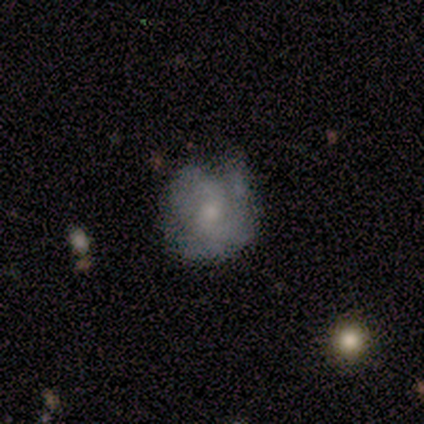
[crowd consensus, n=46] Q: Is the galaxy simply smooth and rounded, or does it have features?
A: featured or disk — 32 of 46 (70%).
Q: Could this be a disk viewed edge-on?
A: no — 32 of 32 (100%).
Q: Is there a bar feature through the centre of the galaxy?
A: no — 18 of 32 (56%).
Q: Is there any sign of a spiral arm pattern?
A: yes — 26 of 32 (81%).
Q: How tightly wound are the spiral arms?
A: tight — 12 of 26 (46%).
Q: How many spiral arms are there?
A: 2 — 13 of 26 (50%).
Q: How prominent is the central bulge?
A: small — 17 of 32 (53%).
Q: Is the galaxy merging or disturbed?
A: none — 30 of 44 (68%).